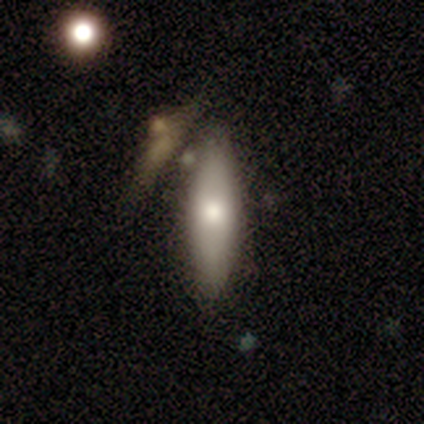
Smooth or featured? 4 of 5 (80%) said smooth. How rounded? 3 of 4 (75%) said cigar-shaped. Merging? 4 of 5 (80%) said none.